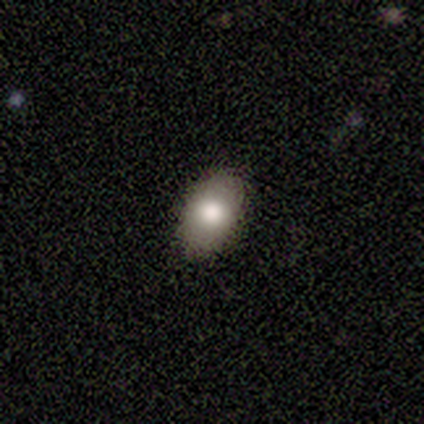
smooth-or-featured: smooth: 100% | featured or disk: 0% | star or artifact: 0%
  how-rounded: in between: 80% | round: 20% | cigar-shaped: 0%
  merging: none: 80% | minor disturbance: 20% | major disturbance: 0% | merger: 0%